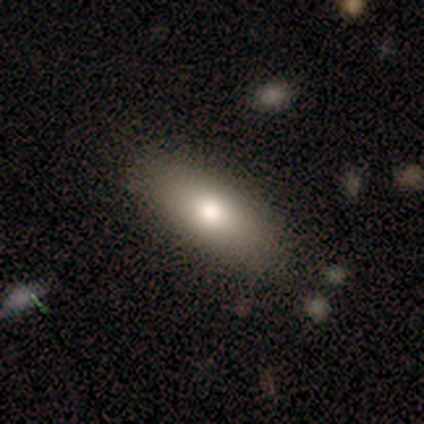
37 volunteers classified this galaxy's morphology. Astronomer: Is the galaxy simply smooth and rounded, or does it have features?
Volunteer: smooth — 84%.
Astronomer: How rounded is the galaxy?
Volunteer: in between — 74%.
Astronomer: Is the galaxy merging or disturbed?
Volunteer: none — 89%.